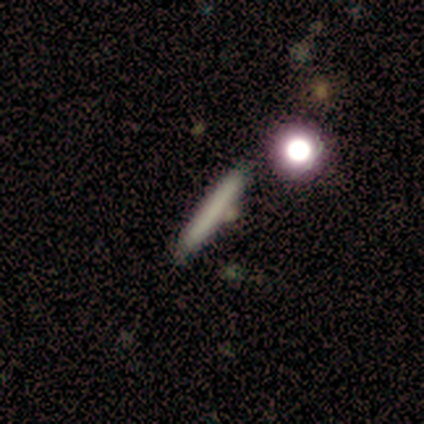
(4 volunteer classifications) Smooth or featured? smooth (75%)
How rounded? cigar-shaped (100%)
Merging? none (67%)